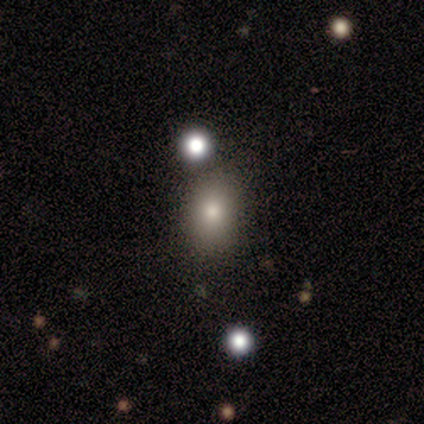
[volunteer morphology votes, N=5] Smooth or featured? smooth (60%)
How rounded? in between (100%)
Merging? none (100%)